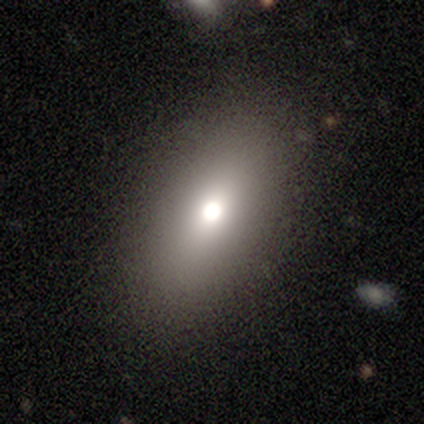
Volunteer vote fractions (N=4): A smooth galaxy with no disk features (100%) that is in between round and cigar-shaped (100%). Merging: none (100%).